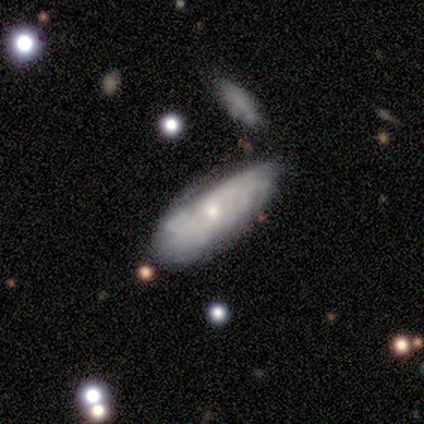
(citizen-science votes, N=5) Overall: featured or disk (80%). Edge-on disk: no (75%). Bar: strong (33%, tied with weak and no). Spiral arms: yes (100%). Spiral arm count: 1 (33%, tied with more than 4 and can't tell). Spiral winding: medium (67%; tight 33%). Bulge size: large (33%, tied with small and none). Merging: none (80%).